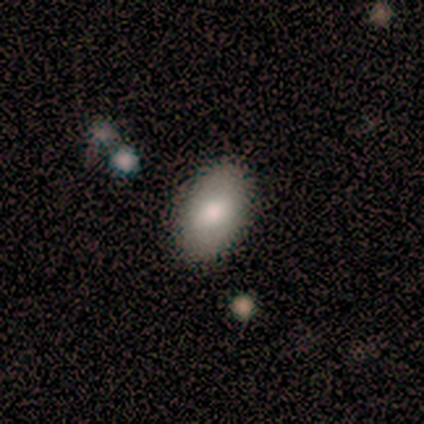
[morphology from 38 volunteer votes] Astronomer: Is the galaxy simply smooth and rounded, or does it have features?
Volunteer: smooth — 82%.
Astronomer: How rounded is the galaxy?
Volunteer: in between — 97%.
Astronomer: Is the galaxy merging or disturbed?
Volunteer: none — 95%.